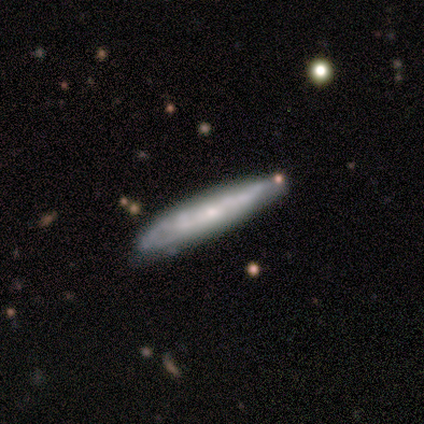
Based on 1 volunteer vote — smooth-or-featured: featured or disk: 100% | smooth: 0% | star or artifact: 0%
  disk-edge-on: yes: 100% | no: 0%
    edge-on-bulge: none: 100% | boxy: 0% | rounded: 0%
  merging: minor disturbance: 100% | none: 0% | major disturbance: 0% | merger: 0%